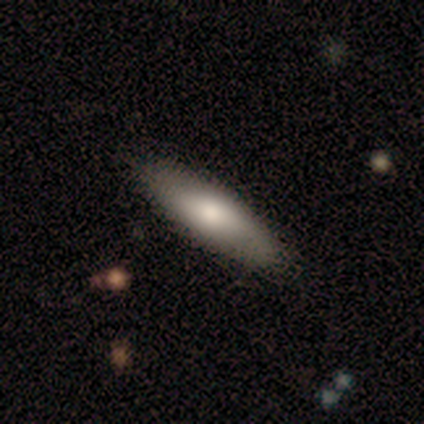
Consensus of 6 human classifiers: smooth_or_featured: smooth (p=1.00)
how_rounded: cigar-shaped (p=0.83) [alt: in between p=0.17]
merging: none (p=0.83) [alt: minor disturbance p=0.17]